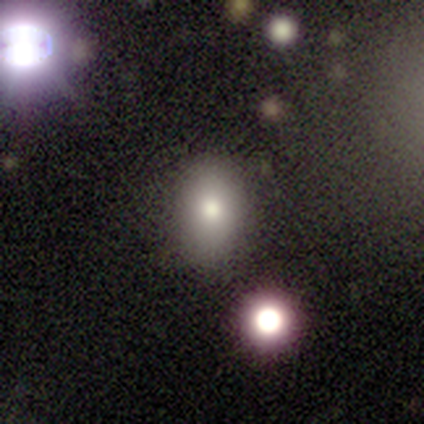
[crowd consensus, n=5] smooth_or_featured: smooth (p=0.60) [alt: featured or disk p=0.20]
how_rounded: in between (p=0.67) [alt: round p=0.33]
merging: none (p=1.00)